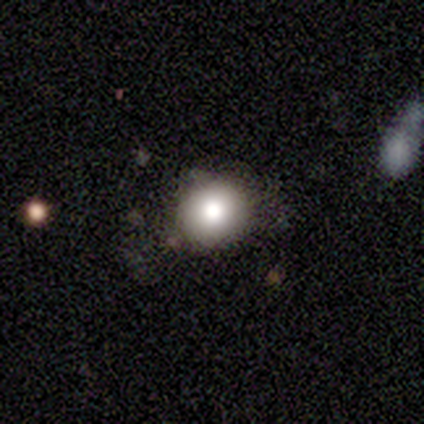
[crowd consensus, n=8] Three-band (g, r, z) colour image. It shows a smooth galaxy with no disk features (75%) that is round (83%). Merging: none (88%).